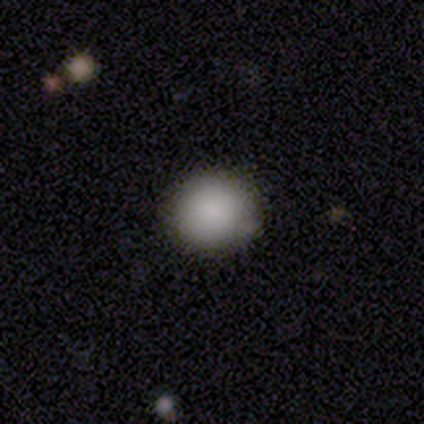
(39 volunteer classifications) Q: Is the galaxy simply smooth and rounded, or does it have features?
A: smooth — 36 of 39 (92%).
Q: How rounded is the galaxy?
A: round — 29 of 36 (81%).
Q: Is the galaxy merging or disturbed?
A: none — 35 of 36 (97%).